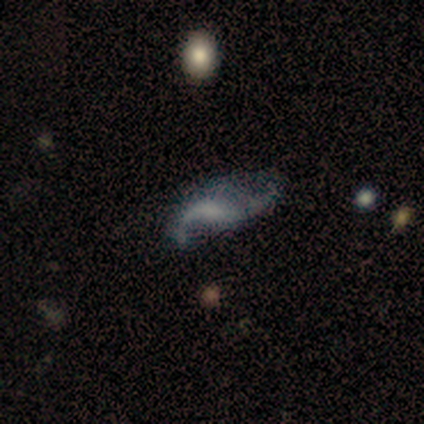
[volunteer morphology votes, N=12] Smooth or featured: featured or disk — 58% (smooth — 33%)
Edge-on disk: no — 100%
Bar: no — 86% (weak — 14%)
Spiral arms: yes — 100%
Spiral winding: loose — 100%
Spiral arm count: 2 — 100%
Bulge size: none — 57% (moderate — 29%)
Merging: major disturbance — 45% (none — 27%)